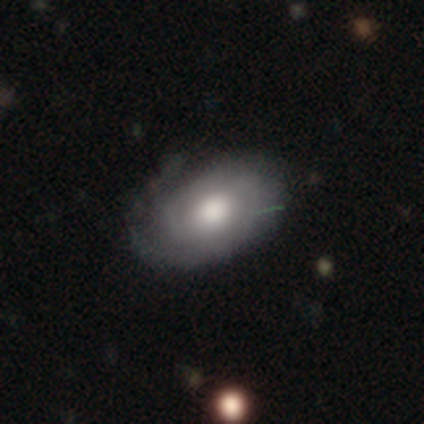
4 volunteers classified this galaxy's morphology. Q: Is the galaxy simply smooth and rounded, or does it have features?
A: featured or disk — 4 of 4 (100%).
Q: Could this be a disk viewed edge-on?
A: no — 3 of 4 (75%).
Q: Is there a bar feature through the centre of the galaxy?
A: no — 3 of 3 (100%).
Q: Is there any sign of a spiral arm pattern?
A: yes — 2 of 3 (67%).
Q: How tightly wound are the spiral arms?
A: tight — 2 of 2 (100%).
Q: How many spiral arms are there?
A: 2 — 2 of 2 (100%).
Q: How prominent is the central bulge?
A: moderate — 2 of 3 (67%).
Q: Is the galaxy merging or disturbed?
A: none — 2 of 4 (50%, tied with minor disturbance).